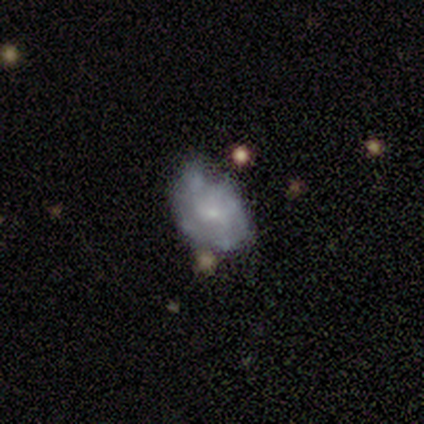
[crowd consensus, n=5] smooth 60%, featured or disk 20%, star or artifact 20%. Down the decision tree: how rounded — in between (100%); merging — minor disturbance (100%).